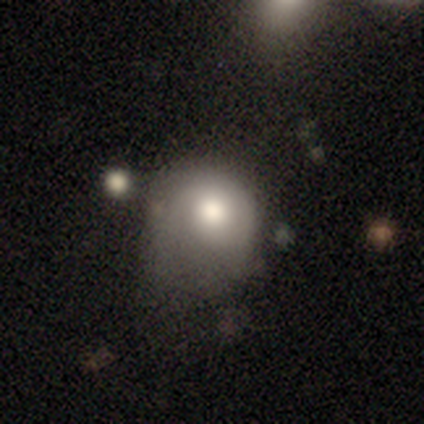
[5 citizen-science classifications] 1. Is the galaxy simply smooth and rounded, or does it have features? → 60% smooth, 20% featured or disk, 20% star or artifact.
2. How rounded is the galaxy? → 100% round, 0% in between, 0% cigar-shaped.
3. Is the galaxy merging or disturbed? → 50% none, 25% minor disturbance, 25% major disturbance, 0% merger.